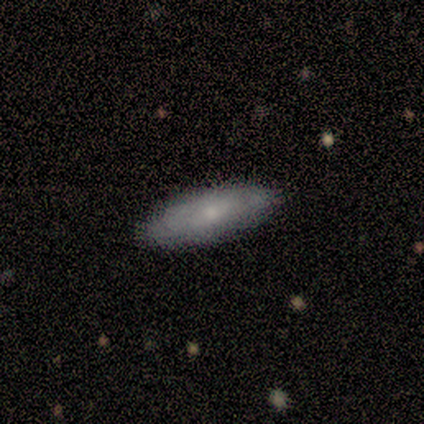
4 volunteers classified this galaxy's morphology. Q: Smooth or featured?
A: smooth (50%); tied with: featured or disk (50%)
Q: How rounded?
A: in between (50%); tied with: cigar-shaped (50%)
Q: Merging?
A: none (100%)